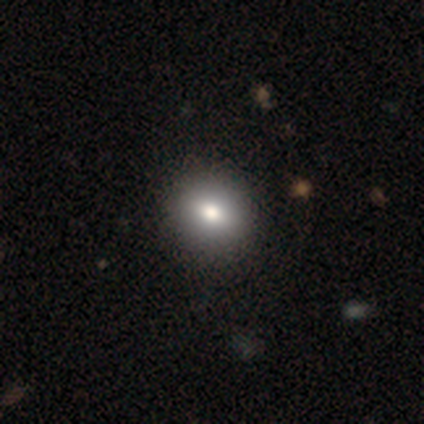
This is likely a smooth galaxy (60%). How rounded: likely round (67%). Merging: likely none (75%).